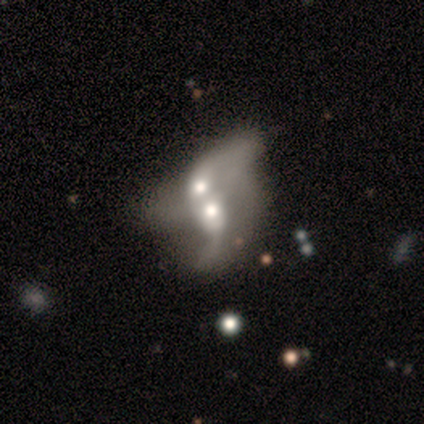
Volunteers were most divided on "spiral arms" (2-way tie): yes: 50%, no: 50%; "spiral arm count" (2-way tie): 2: 50%, can't tell: 50%, 1: 0%, 3: 0%, 4: 0%, more than 4: 0%. More confident: edge-on disk — no (100%); bar — no (100%); spiral winding — loose (100%); merging — merger (100%); smooth or featured — featured or disk (80%); bulge size — moderate (50%).